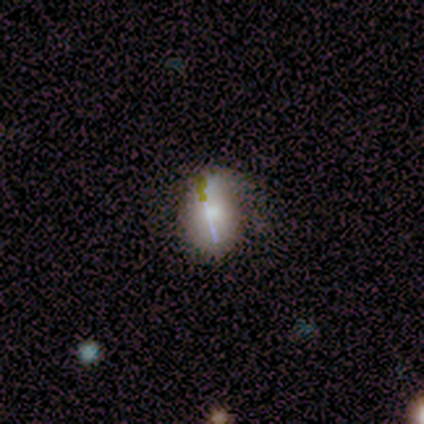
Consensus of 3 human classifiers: featured or disk 67%, smooth 33%, star or artifact 0%. Down the decision tree: edge-on disk — yes (50%, tied with no); edge-on bulge — rounded (100%); merging — none (33%, tied with minor disturbance and major disturbance).